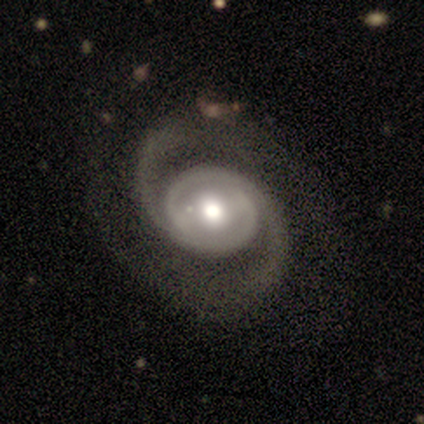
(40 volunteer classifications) Smooth or featured?
  - featured or disk: 90% *
  - smooth: 10%
  - star or artifact: 0%
Edge-on disk?
  - no: 97% *
  - yes: 3%
Bar?
  - no: 63% *
  - weak: 26%
  - strong: 11%
Spiral arms?
  - yes: 97% *
  - no: 3%
Spiral winding?
  - medium: 47% *
  - tight: 29%
  - loose: 24%
Spiral arm count?
  - 2: 91% *
  - can't tell: 9%
  - 1: 0%
  - 3: 0%
  - 4: 0%
  - more than 4: 0%
Bulge size?
  - moderate: 66% *
  - large: 29%
  - dominant: 3%
  - small: 3%
  - none: 0%
Merging?
  - none: 72% *
  - major disturbance: 12%
  - minor disturbance: 10%
  - merger: 5%